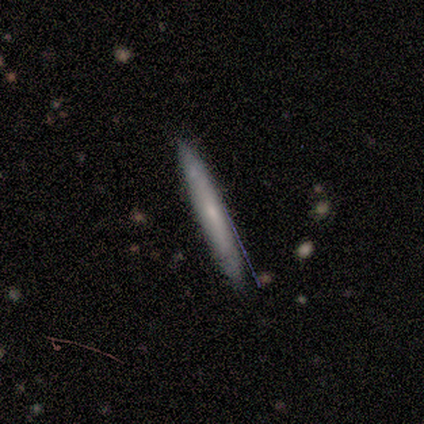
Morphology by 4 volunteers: This appears to be a smooth galaxy with no disk features (50%, tied with featured or disk) that is cigar-shaped (100%). Merging: none (100%).